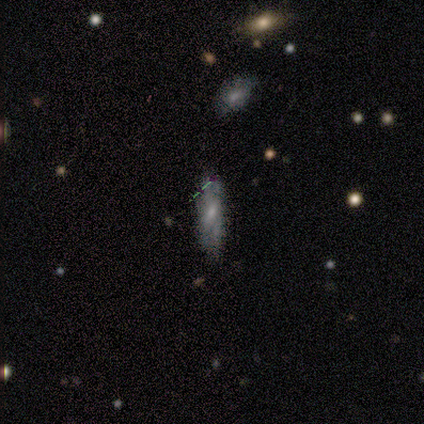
This is marginally a smooth galaxy (41%). How rounded: possibly in between (50%, tied with cigar-shaped). Merging: likely none (77%).